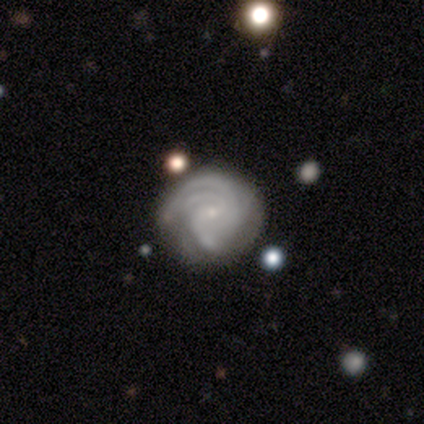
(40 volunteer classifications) Smooth or featured? featured or disk (90%)
Edge-on disk? no (97%)
Bar? no (51%)
Spiral arms? yes (100%)
Spiral winding? tight (74%)
Spiral arm count? 3 (49%)
Bulge size? small (77%)
Merging? none (42%)